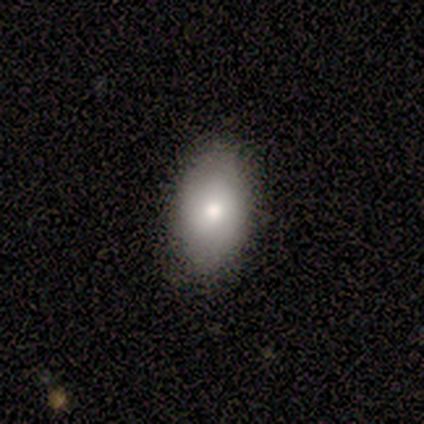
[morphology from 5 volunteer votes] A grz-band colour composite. It shows a smooth galaxy with no disk features (100%) that is in between round and cigar-shaped (100%). Merging: none (100%).